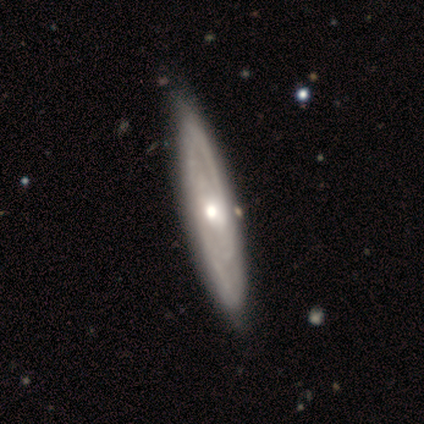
smooth-or-featured: featured or disk: 80% | smooth: 20% | star or artifact: 0%
  disk-edge-on: yes: 50% (tied) | no: 50% (tied)
    edge-on-bulge: rounded: 100% | boxy: 0% | none: 0%
  merging: none: 80% | minor disturbance: 20% | major disturbance: 0% | merger: 0%